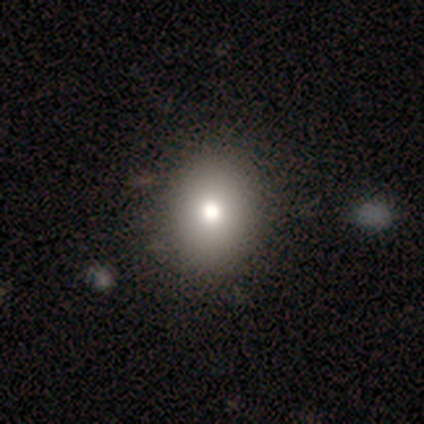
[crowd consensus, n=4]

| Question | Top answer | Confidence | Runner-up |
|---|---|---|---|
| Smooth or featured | smooth | 100% | — |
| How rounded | round | 50% | tied: in between (50%) |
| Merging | none | 75% | minor disturbance (25%) |